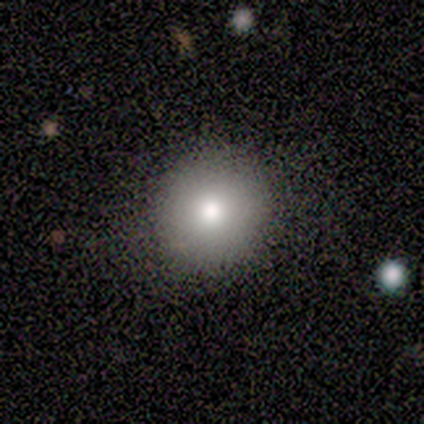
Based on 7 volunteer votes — smooth 57%, featured or disk 29%, star or artifact 14%. Down the decision tree: how rounded — round (100%); merging — none (67%).